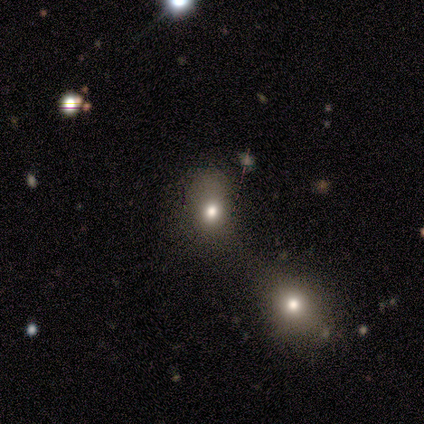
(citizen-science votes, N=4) Smooth or featured?
  - star or artifact: 50% *
  - smooth: 25%
  - featured or disk: 25%